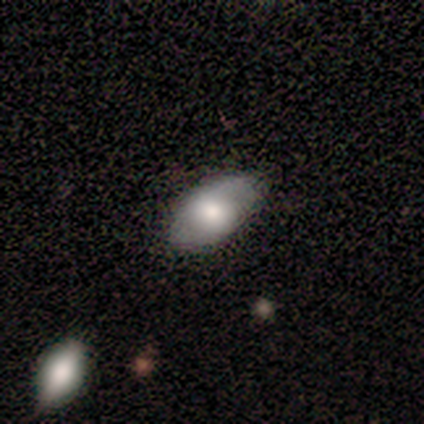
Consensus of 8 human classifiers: Morphology: type=smooth (50%, tied with featured or disk); roundness=in between (75%); merging=none (88%).